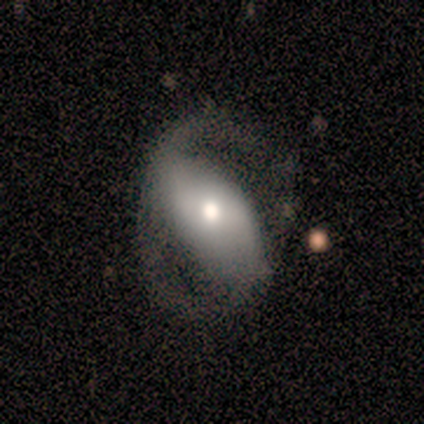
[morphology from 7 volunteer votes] Overall: featured or disk (86%). Edge-on disk: no (100%). Bar: strong (50%; no 33%). Spiral arms: yes (83%). Spiral arm count: 2 (100%). Spiral winding: loose (60%; medium 40%). Bulge size: moderate (83%). Merging: none (43%; major disturbance 29%).